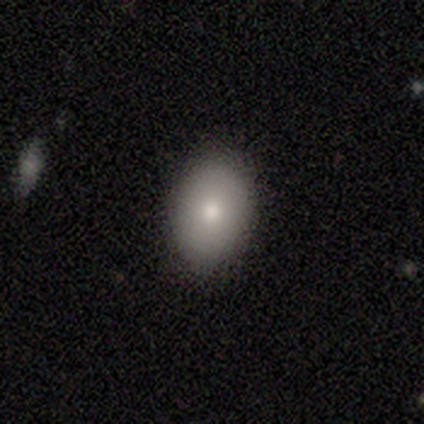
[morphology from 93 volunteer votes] Smooth or featured? smooth (80%)
How rounded? in between (68%)
Merging? none (91%)